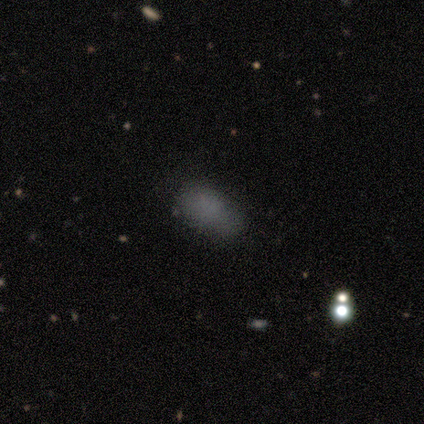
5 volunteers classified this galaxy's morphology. smooth-or-featured: smooth: 80% | star or artifact: 20% | featured or disk: 0%
  how-rounded: in between: 100% | round: 0% | cigar-shaped: 0%
  merging: none: 50% (tied) | minor disturbance: 50% (tied) | major disturbance: 0% | merger: 0%